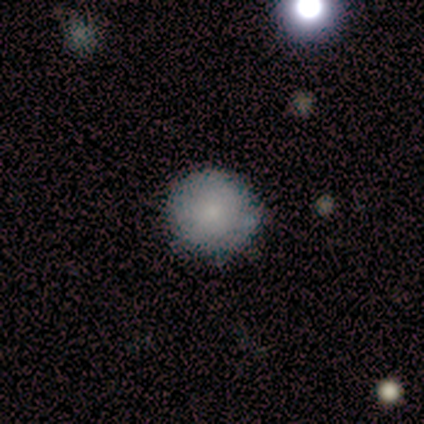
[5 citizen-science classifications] Smooth or featured: smooth — 100%
How rounded: round — 100%
Merging: none — 100%